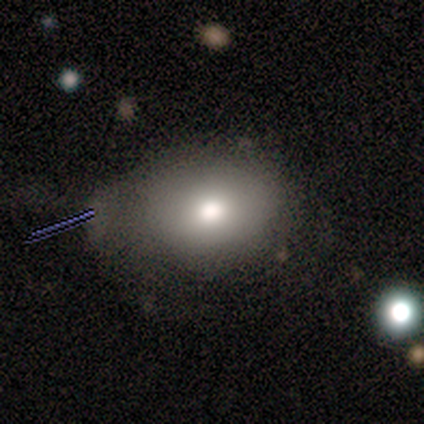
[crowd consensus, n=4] smooth-or-featured: smooth: 100% | featured or disk: 0% | star or artifact: 0%
  how-rounded: round: 50% (tied) | in between: 50% (tied) | cigar-shaped: 0%
  merging: none: 75% | major disturbance: 25% | minor disturbance: 0% | merger: 0%